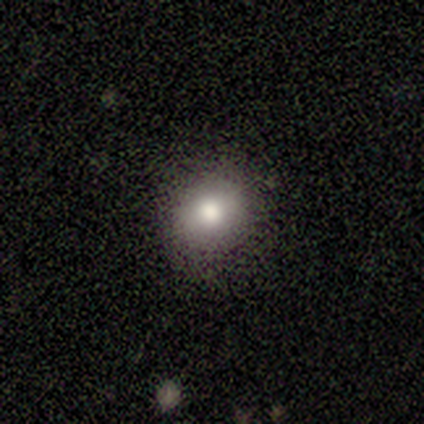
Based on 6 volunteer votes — Smooth or featured?
  - smooth: 50% *
  - star or artifact: 33%
  - featured or disk: 17%
How rounded?
  - round: 100% *
  - in between: 0%
  - cigar-shaped: 0%
Merging?
  - none: 100% *
  - minor disturbance: 0%
  - major disturbance: 0%
  - merger: 0%